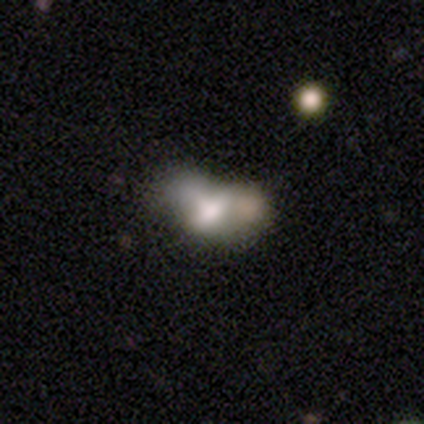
Q: Smooth or featured?
A: smooth (75%); runner-up: featured or disk (25%)
Q: How rounded?
A: in between (100%)
Q: Merging?
A: major disturbance (50%); tied with: merger (50%)